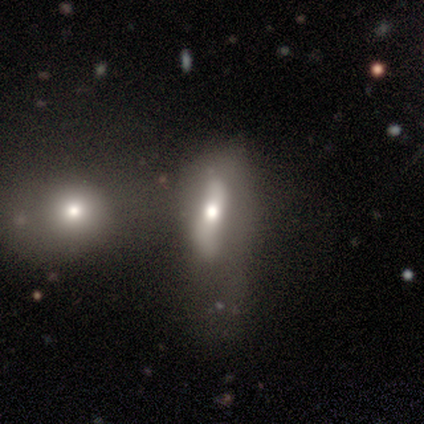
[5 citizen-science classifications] Smooth or featured?
  - featured or disk: 80% *
  - smooth: 20%
  - star or artifact: 0%
Edge-on disk?
  - no: 75% *
  - yes: 25%
Bar?
  - strong: 100% *
  - weak: 0%
  - no: 0%
Spiral arms?
  - no: 67% *
  - yes: 33%
Bulge size?
  - moderate: 100% *
  - dominant: 0%
  - large: 0%
  - small: 0%
  - none: 0%
Merging?
  - none: 40% *
  - minor disturbance: 20%
  - major disturbance: 20%
  - merger: 20%